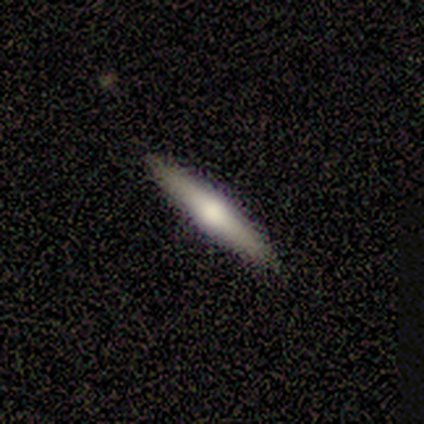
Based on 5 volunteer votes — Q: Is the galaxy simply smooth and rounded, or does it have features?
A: smooth — 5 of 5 (100%).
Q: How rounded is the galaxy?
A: cigar-shaped — 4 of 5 (80%).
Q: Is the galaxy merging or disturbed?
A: none — 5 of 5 (100%).